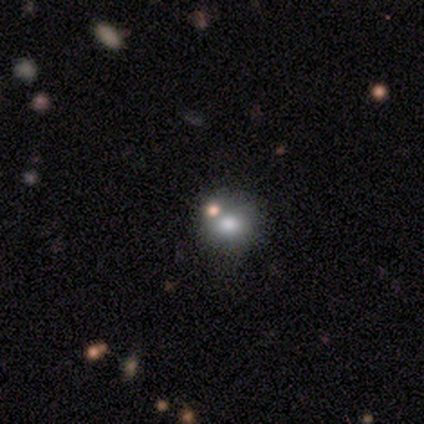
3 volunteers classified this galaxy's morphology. smooth 67%, star or artifact 33%, featured or disk 0%. Down the decision tree: how rounded — round (50%, tied with in between); merging — none (100%).